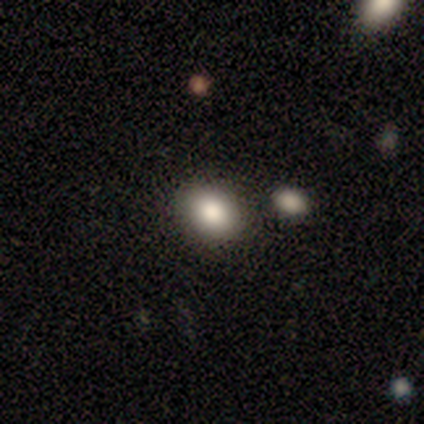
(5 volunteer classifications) Volunteers were most divided on "how rounded": round: 60%, in between: 40%, cigar-shaped: 0%. More confident: smooth or featured — smooth (100%); merging — none (60%).